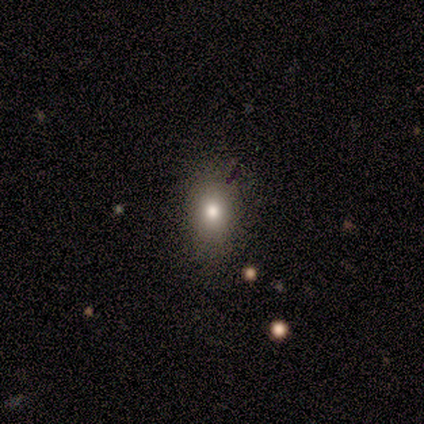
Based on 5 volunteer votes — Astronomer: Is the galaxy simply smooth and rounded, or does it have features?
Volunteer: smooth — 60% (runner-up: featured or disk, 40%).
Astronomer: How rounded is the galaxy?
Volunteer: in between — 67%.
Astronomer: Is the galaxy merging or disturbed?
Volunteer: none — 80%.